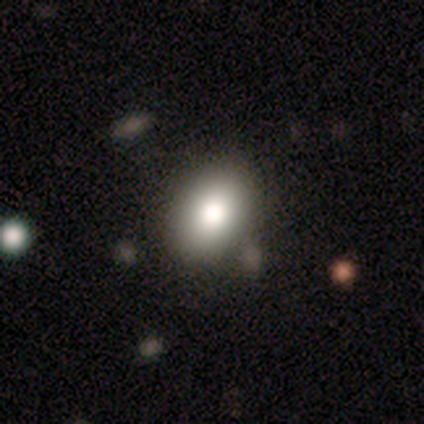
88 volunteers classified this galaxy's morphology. type=smooth (75%); roundness=in between (71%); merging=none (78%).